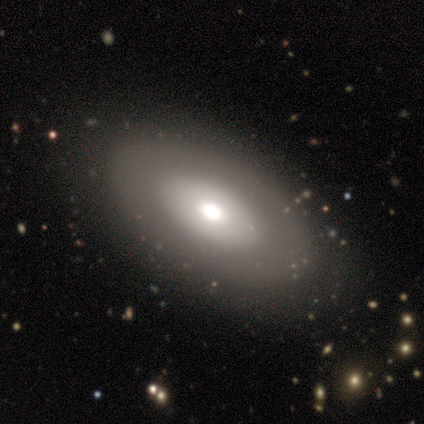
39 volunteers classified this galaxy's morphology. A featured or disk galaxy (51%) with no bar (82%), no spiral arms (88%) and a moderate central bulge (59%).

Vote fractions:
- Smooth or featured? featured or disk: 51% / smooth: 44% / star or artifact: 5%
- Edge-on disk? no: 85% / yes: 15%
- Bar? no: 82% / weak: 18% / strong: 0%
- Spiral arms? no: 88% / yes: 12%
- Bulge size? moderate: 59% / large: 24% / dominant: 18% / small: 0% / none: 0%
- Merging? none: 59% / minor disturbance: 3% / merger: 3% / major disturbance: 0%